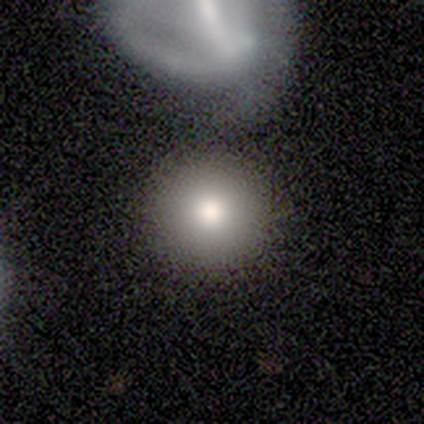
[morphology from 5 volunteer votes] smooth_or_featured: smooth (p=0.80) [alt: featured or disk p=0.20]
how_rounded: round (p=1.00)
merging: none (p=0.80) [alt: minor disturbance p=0.20]